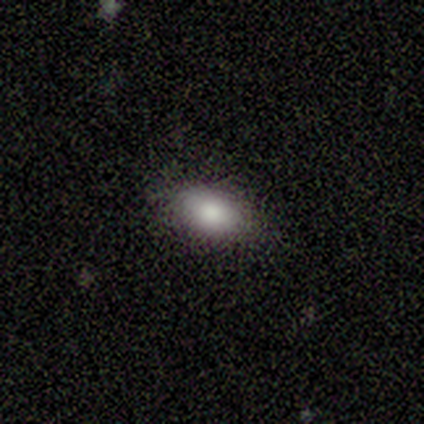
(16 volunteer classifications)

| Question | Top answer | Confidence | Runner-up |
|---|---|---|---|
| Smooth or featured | smooth | 69% | featured or disk (19%) |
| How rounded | in between | 82% | round (9%) |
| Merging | none | 86% | minor disturbance (14%) |